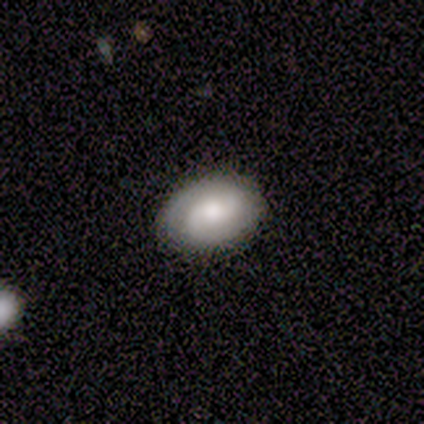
Smooth or featured? featured or disk (60%)
Edge-on disk? no (100%)
Bar? weak (67%)
Spiral arms? yes (100%)
Spiral winding? medium (67%)
Spiral arm count? 2 (100%)
Bulge size? large (33%, tied with moderate and small)
Merging? none (100%)